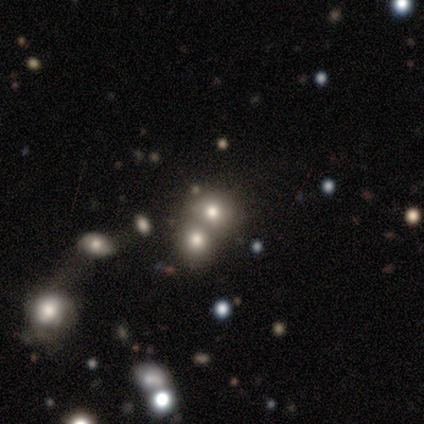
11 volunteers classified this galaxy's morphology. smooth-or-featured: smooth: 55% | star or artifact: 45% | featured or disk: 0%
  how-rounded: round: 83% | in between: 17% | cigar-shaped: 0%
  merging: none: 83% | merger: 17% | minor disturbance: 0% | major disturbance: 0%